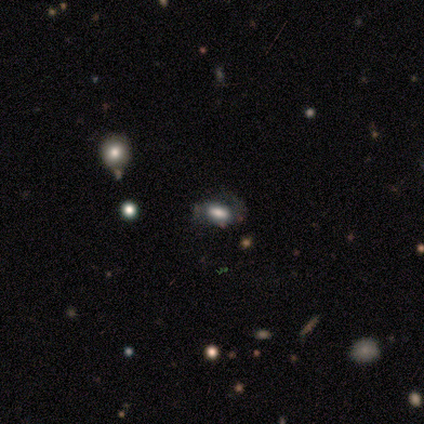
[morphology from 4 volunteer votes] Volunteers were most divided on "bar" (2-way tie): weak: 50%, no: 50%, strong: 0%; "spiral arms" (2-way tie): yes: 50%, no: 50%; "bulge size" (2-way tie): dominant: 50%, large: 50%, moderate: 0%, small: 0%, none: 0%. More confident: edge-on disk — no (100%); spiral winding — medium (100%); spiral arm count — 1 (100%); merging — none (67%); smooth or featured — featured or disk (50%).